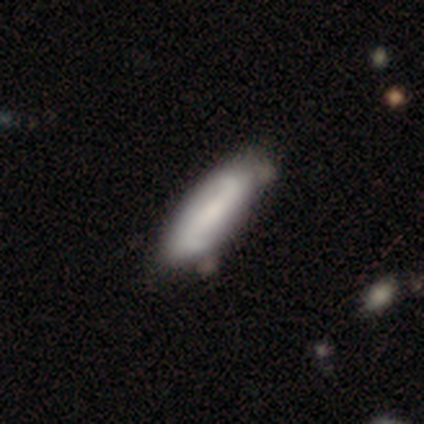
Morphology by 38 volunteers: smooth_or_featured: featured or disk (p=0.79) [alt: smooth p=0.21]
disk_edge_on: no (p=0.83) [alt: yes p=0.17]
bar: strong (p=0.48) [alt: weak p=0.32]
has_spiral_arms: yes (p=1.00)
spiral_winding: loose (p=0.84) [alt: medium p=0.16]
spiral_arm_count: 2 (p=0.92) [alt: 4 p=0.04]
bulge_size: moderate (p=0.40) [tied with: small p=0.40]
merging: none (p=0.63) [alt: minor disturbance p=0.08]